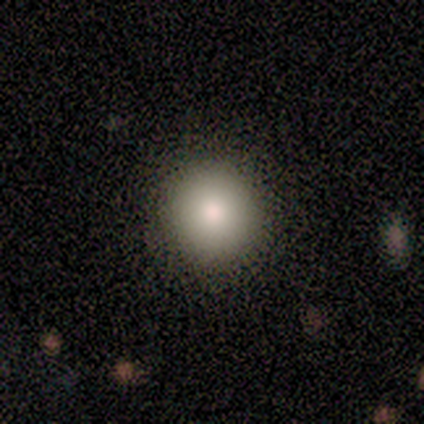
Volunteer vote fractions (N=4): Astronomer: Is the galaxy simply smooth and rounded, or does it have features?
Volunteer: smooth — 100%.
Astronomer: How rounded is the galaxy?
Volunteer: round — 75%.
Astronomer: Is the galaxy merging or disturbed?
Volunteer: none — 100%.